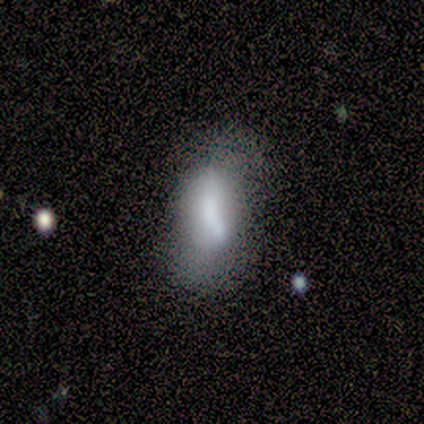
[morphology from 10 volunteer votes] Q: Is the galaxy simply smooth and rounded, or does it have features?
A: smooth — 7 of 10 (70%).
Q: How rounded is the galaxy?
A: in between — 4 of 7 (57%).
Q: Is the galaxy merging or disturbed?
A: minor disturbance — 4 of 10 (40%).